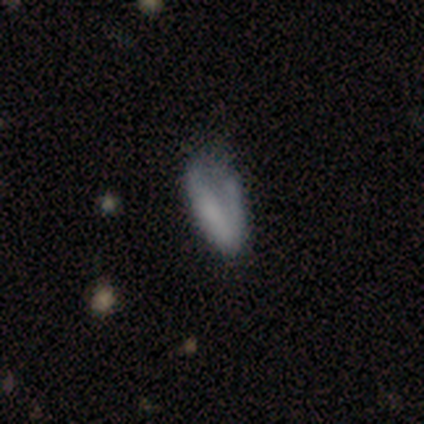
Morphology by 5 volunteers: Smooth or featured: featured or disk — 60% (smooth — 40%)
Edge-on disk: no — 100%
Bar: strong — 33% (tied with weak — 33%; no — 33%)
Spiral arms: yes — 100%
Spiral winding: tight — 33% (tied with medium — 33%; loose — 33%)
Spiral arm count: 1 — 67% (2 — 33%)
Bulge size: none — 67% (moderate — 33%)
Merging: none — 40% (tied with major disturbance — 40%)